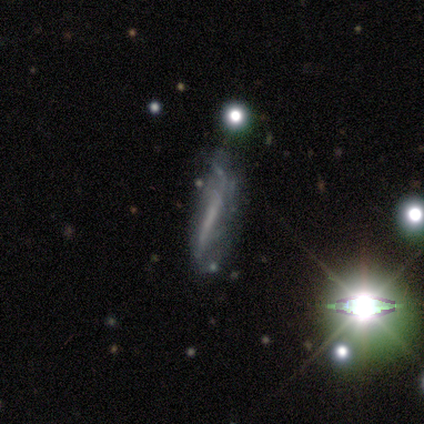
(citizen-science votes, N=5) A featured or disk galaxy (40%, tied with star or artifact) viewed edge-on (50%, tied with no) with a boxy central bulge (100%).

Vote fractions:
- Smooth or featured? featured or disk: 40% (tied) / star or artifact: 40% (tied) / smooth: 20%
- Edge-on disk? yes: 50% (tied) / no: 50% (tied)
- Edge-on bulge? boxy: 100% / none: 0% / rounded: 0%
- Merging? none: 67% / minor disturbance: 33% / major disturbance: 0% / merger: 0%